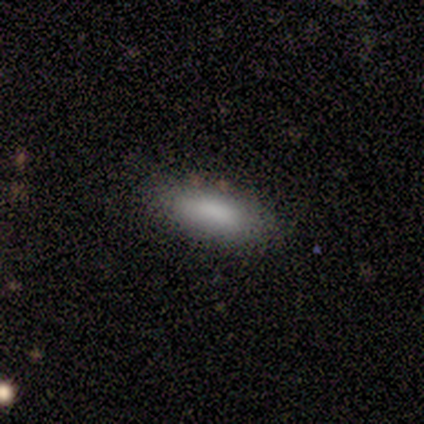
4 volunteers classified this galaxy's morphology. Q: Smooth or featured?
A: smooth (75%); runner-up: featured or disk (25%)
Q: How rounded?
A: cigar-shaped (67%); runner-up: in between (33%)
Q: Merging?
A: none (75%); runner-up: minor disturbance (25%)